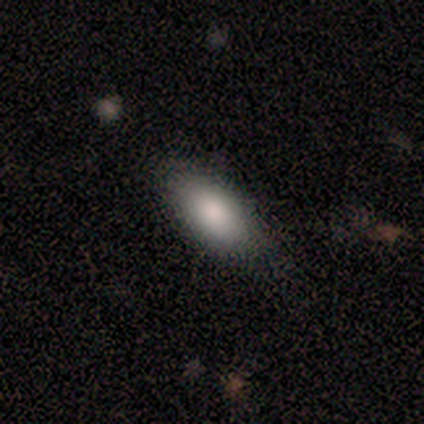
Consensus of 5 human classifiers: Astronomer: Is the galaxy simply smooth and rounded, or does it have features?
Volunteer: smooth — 100%.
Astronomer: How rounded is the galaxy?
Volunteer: in between — 100%.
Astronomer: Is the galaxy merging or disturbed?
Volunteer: none — 100%.